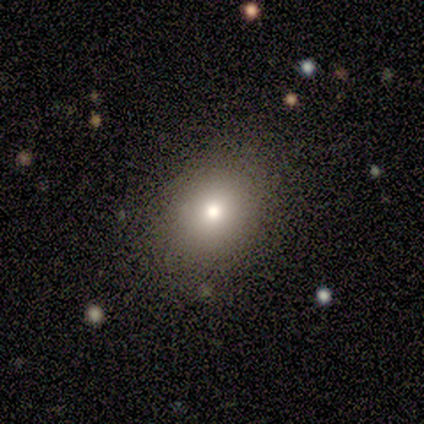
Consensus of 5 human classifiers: This is clearly a smooth galaxy (80%). How rounded: likely round (75%). Merging: likely none (60%).